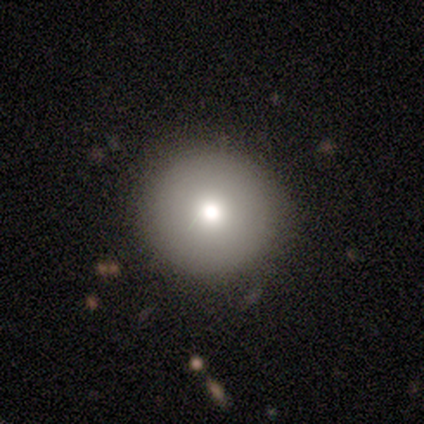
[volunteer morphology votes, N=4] smooth-or-featured: smooth: 100% | featured or disk: 0% | star or artifact: 0%
  how-rounded: round: 100% | in between: 0% | cigar-shaped: 0%
  merging: none: 75% | major disturbance: 25% | minor disturbance: 0% | merger: 0%